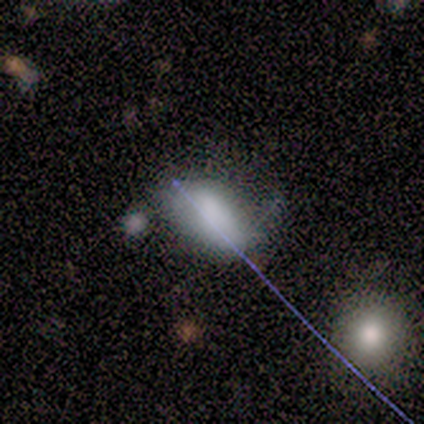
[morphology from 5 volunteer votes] A smooth galaxy with no disk features (80%) that is in between round and cigar-shaped (100%).

Vote fractions:
- Smooth or featured? smooth: 80% / star or artifact: 20% / featured or disk: 0%
- How rounded? in between: 100% / round: 0% / cigar-shaped: 0%
- Merging? minor disturbance: 75% / none: 25% / major disturbance: 0% / merger: 0%